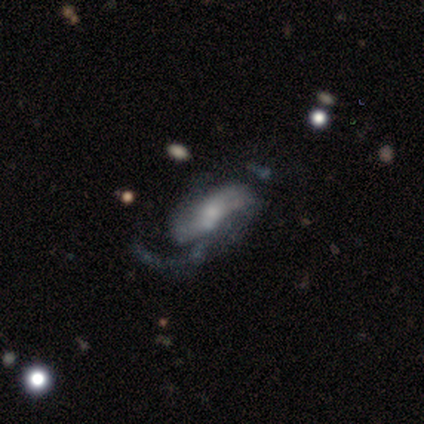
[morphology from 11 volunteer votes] Smooth or featured: featured or disk — 82% (smooth — 9%)
Edge-on disk: no — 100%
Bar: no — 44% (weak — 33%)
Spiral arms: yes — 89% (no — 11%)
Spiral winding: loose — 62% (medium — 25%)
Spiral arm count: 2 — 50% (1 — 25%)
Bulge size: none — 44% (small — 33%)
Merging: none — 50% (minor disturbance — 20%)